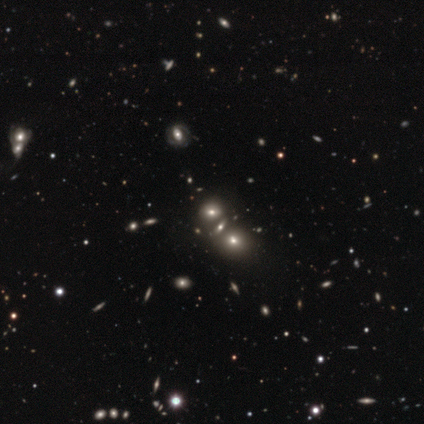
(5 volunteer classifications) Smooth or featured? 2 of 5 (40%, tied with star or artifact) said smooth. How rounded? 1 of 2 (50%, tied with cigar-shaped) said in between. Merging? 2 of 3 (67%) said merger.